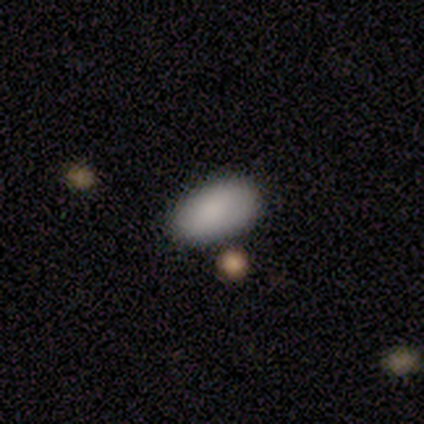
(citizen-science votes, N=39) A smooth galaxy with no disk features (90%) that is in between round and cigar-shaped (100%).

Vote fractions:
- Smooth or featured? smooth: 90% / featured or disk: 5% / star or artifact: 5%
- How rounded? in between: 100% / round: 0% / cigar-shaped: 0%
- Merging? none: 86% / minor disturbance: 14% / major disturbance: 0% / merger: 0%